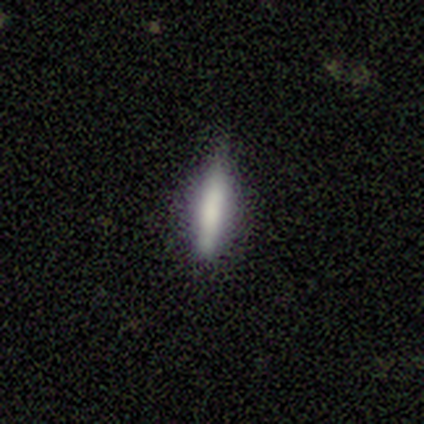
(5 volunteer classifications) smooth 60%, featured or disk 40%, star or artifact 0%. Down the decision tree: how rounded — cigar-shaped (67%); merging — none (80%).